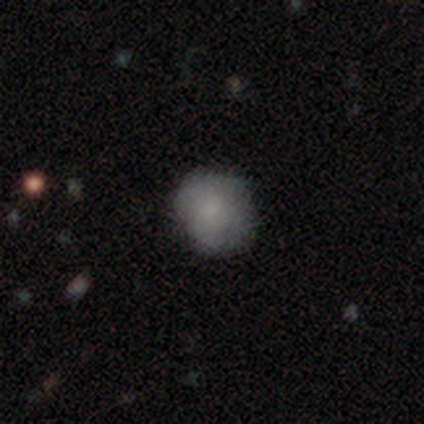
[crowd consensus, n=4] Volunteers were most divided on "smooth or featured" (2-way tie): smooth: 50%, featured or disk: 50%, star or artifact: 0%. More confident: how rounded — round (100%); merging — none (100%).